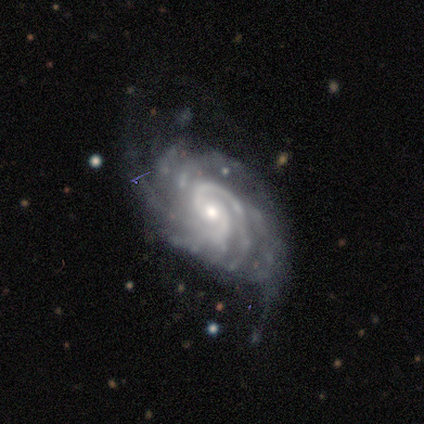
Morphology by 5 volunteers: Smooth or featured? featured or disk (80%)
Edge-on disk? no (100%)
Bar? weak (50%, tied with no)
Spiral arms? yes (100%)
Spiral winding? tight (75%)
Spiral arm count? 2 (50%)
Bulge size? moderate (50%, tied with small)
Merging? none (60%)